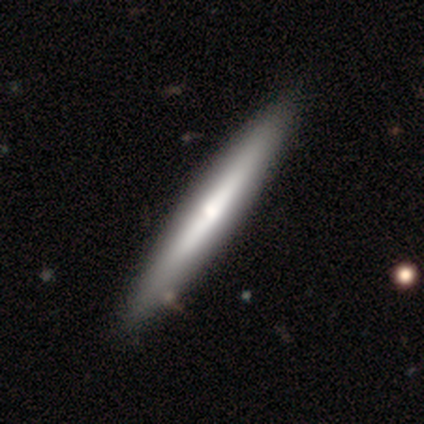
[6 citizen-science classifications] smooth-or-featured: featured or disk: 83% | smooth: 17% | star or artifact: 0%
  disk-edge-on: yes: 80% | no: 20%
    edge-on-bulge: rounded: 100% | boxy: 0% | none: 0%
  merging: none: 67% | minor disturbance: 33% | major disturbance: 0% | merger: 0%